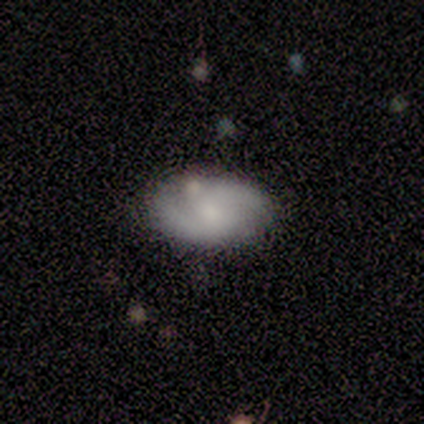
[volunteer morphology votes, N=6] Volunteers were most divided on "bulge size" (2-way tie): moderate: 50%, small: 50%, dominant: 0%, large: 0%, none: 0%. More confident: edge-on disk — no (100%); bar — no (100%); spiral arms — yes (100%); spiral winding — medium (75%); spiral arm count — 2 (75%); smooth or featured — featured or disk (67%); merging — none (67%).